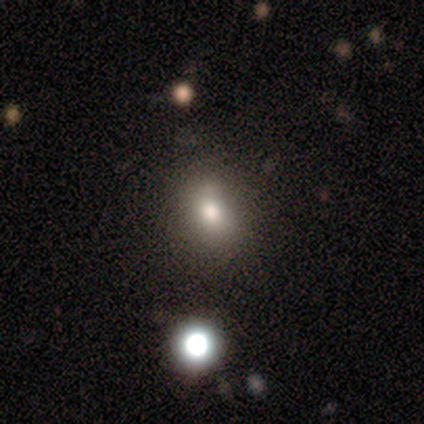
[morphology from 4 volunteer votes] A smooth galaxy with no disk features (100%) that is in between round and cigar-shaped (75%).

Vote fractions:
- Smooth or featured? smooth: 100% / featured or disk: 0% / star or artifact: 0%
- How rounded? in between: 75% / round: 25% / cigar-shaped: 0%
- Merging? none: 100% / minor disturbance: 0% / major disturbance: 0% / merger: 0%